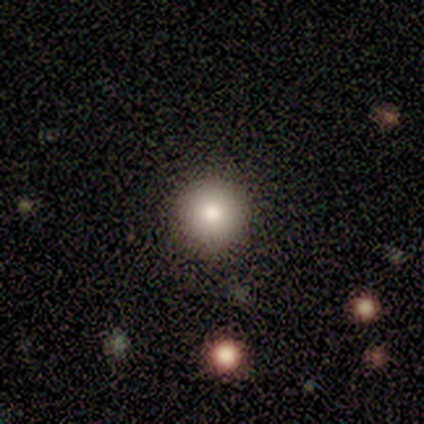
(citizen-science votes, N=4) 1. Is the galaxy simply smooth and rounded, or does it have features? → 100% smooth, 0% featured or disk, 0% star or artifact.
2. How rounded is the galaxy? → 100% round, 0% in between, 0% cigar-shaped.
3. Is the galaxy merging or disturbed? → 100% none, 0% minor disturbance, 0% major disturbance, 0% merger.